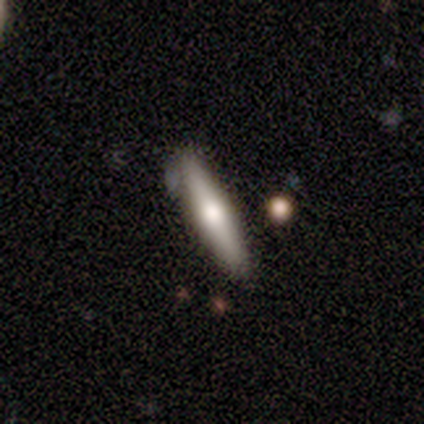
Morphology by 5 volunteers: Volunteers were most divided on "smooth or featured": smooth: 60%, featured or disk: 40%, star or artifact: 0%. More confident: how rounded — cigar-shaped (100%); merging — none (100%).